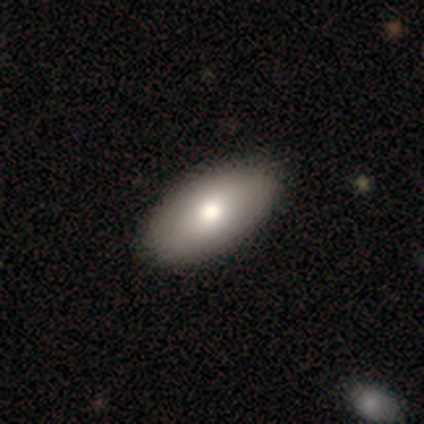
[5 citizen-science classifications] This is clearly a smooth galaxy (80%). How rounded: clearly in between (100%). Merging: clearly none (100%).